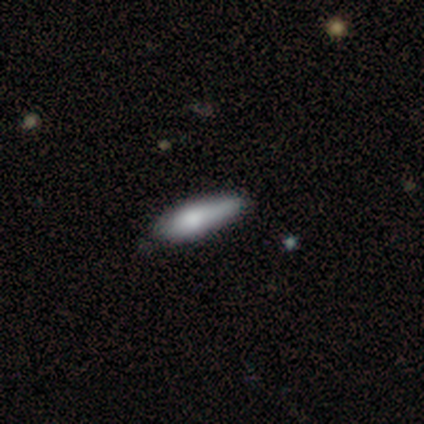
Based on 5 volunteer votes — A smooth galaxy with no disk features (60%) that is in between round and cigar-shaped (67%). Merging: minor disturbance (60%).